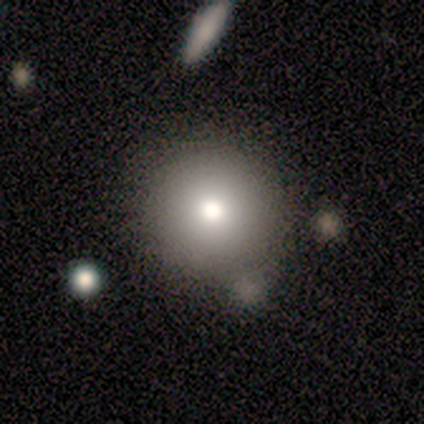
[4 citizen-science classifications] Overall: smooth (75%). How rounded: round (100%). Merging: none (67%; minor disturbance 33%).